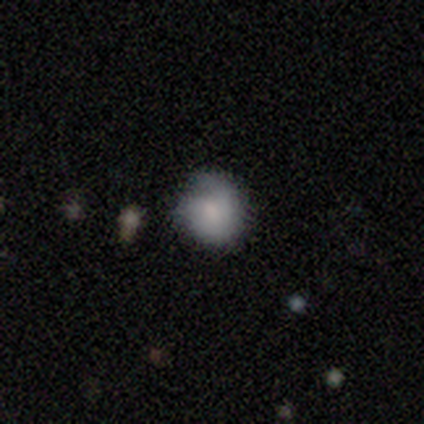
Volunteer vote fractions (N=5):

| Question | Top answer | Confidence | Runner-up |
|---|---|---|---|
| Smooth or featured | smooth | 60% | featured or disk (20%) |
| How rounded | round | 100% | — |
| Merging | minor disturbance | 75% | none (25%) |